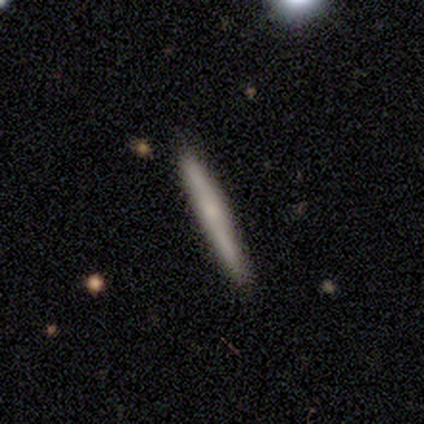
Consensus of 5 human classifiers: Overall: featured or disk (60%; smooth 40%). Edge-on disk: yes (100%). Edge-on bulge: none (67%; rounded 33%). Merging: none (100%).